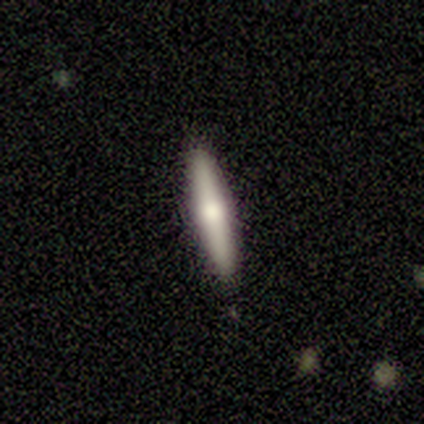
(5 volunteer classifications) A smooth galaxy with no disk features (80%) that is cigar-shaped (75%). Merging: none (100%).